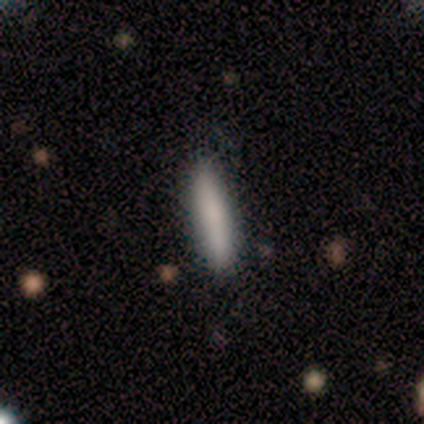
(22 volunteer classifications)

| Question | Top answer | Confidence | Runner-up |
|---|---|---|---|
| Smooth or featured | smooth | 86% | featured or disk (9%) |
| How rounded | cigar-shaped | 79% | in between (21%) |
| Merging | none | 90% | minor disturbance (10%) |